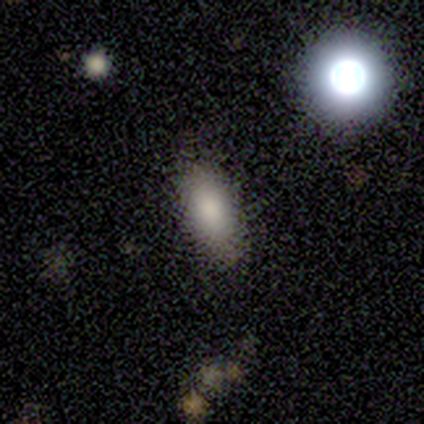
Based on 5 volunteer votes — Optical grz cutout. It shows a smooth galaxy with no disk features (80%) that is in between round and cigar-shaped (75%). Merging: none (80%).